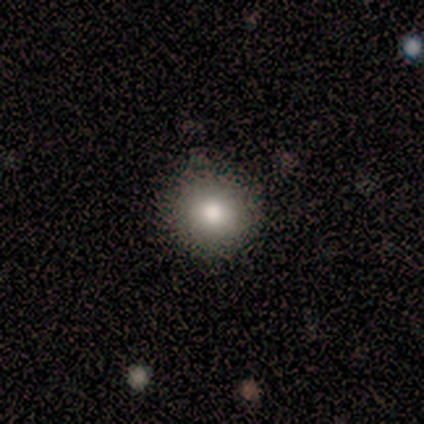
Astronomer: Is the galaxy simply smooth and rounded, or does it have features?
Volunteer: smooth — 100%.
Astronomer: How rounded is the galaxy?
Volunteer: round — 100%.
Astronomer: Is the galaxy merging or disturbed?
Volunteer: none — 80%.